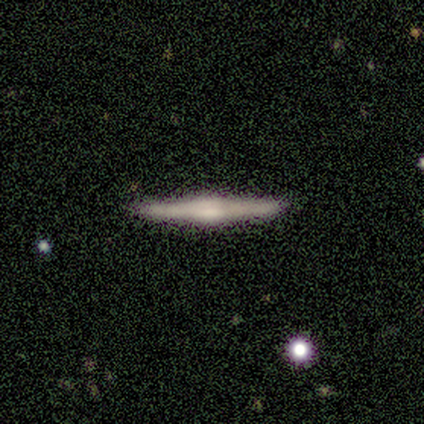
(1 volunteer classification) smooth_or_featured: featured or disk (p=1.00)
disk_edge_on: yes (p=1.00)
edge_on_bulge: rounded (p=1.00)
merging: none (p=1.00)